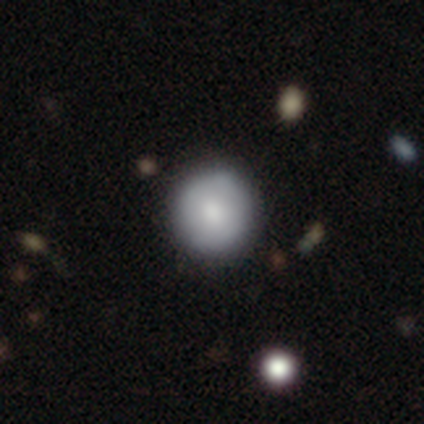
smooth-or-featured: smooth: 87% | featured or disk: 13% | star or artifact: 0%
  how-rounded: round: 97% | in between: 3% | cigar-shaped: 0%
  merging: none: 69% | minor disturbance: 8% | merger: 5% | major disturbance: 0%